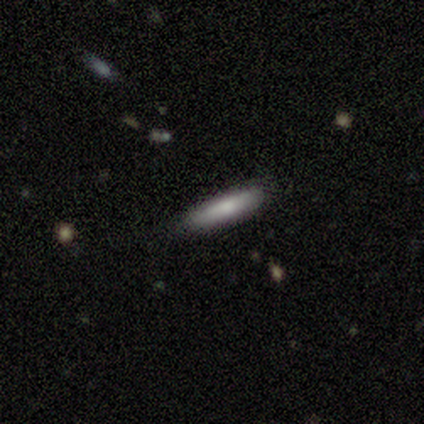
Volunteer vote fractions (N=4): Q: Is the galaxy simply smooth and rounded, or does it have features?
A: smooth — 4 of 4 (100%).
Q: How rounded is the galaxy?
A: cigar-shaped — 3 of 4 (75%).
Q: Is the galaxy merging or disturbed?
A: none — 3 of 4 (75%).